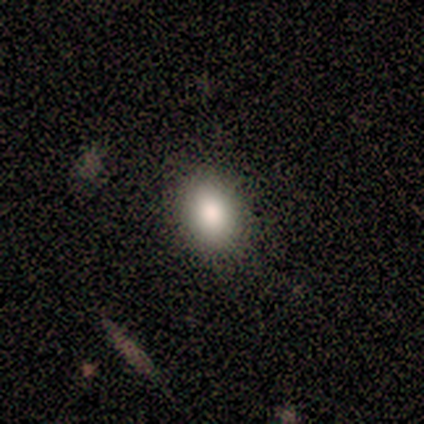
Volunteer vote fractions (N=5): A smooth galaxy with no disk features (80%) that is in between round and cigar-shaped (75%).

Vote fractions:
- Smooth or featured? smooth: 80% / star or artifact: 20% / featured or disk: 0%
- How rounded? in between: 75% / round: 25% / cigar-shaped: 0%
- Merging? none: 100% / minor disturbance: 0% / major disturbance: 0% / merger: 0%